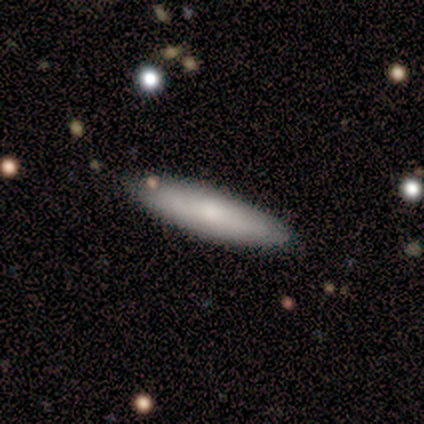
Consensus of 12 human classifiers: This is clearly a smooth galaxy (83%). How rounded: clearly cigar-shaped (90%). Merging: clearly none (100%).